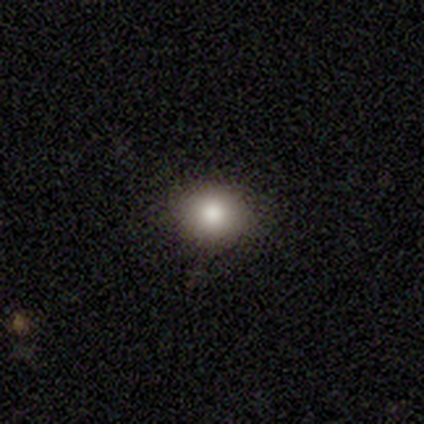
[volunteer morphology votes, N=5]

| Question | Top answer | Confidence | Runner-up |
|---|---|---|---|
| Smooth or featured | smooth | 80% | featured or disk (20%) |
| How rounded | round | 100% | — |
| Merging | none | 100% | — |